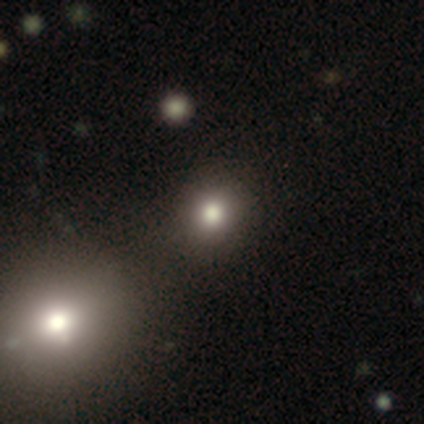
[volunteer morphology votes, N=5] This is clearly a smooth galaxy (100%). How rounded: clearly round (80%). Merging: clearly none (100%).